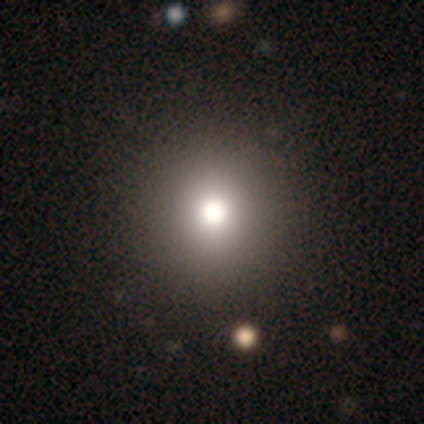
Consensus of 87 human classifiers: Smooth or featured?
  - smooth: 69% *
  - star or artifact: 21%
  - featured or disk: 10%
How rounded?
  - round: 93% *
  - in between: 7%
  - cigar-shaped: 0%
Merging?
  - none: 94% *
  - minor disturbance: 3%
  - major disturbance: 1%
  - merger: 1%